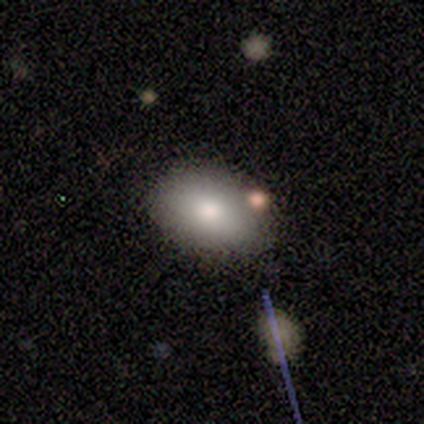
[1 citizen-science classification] Morphology: type=smooth (100%); roundness=round (100%); merging=none (100%).